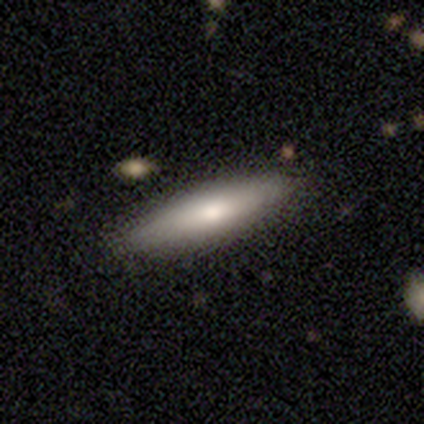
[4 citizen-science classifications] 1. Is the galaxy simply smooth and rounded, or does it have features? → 100% smooth, 0% featured or disk, 0% star or artifact.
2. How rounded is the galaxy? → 75% cigar-shaped, 25% in between, 0% round.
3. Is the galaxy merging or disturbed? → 100% none, 0% minor disturbance, 0% major disturbance, 0% merger.